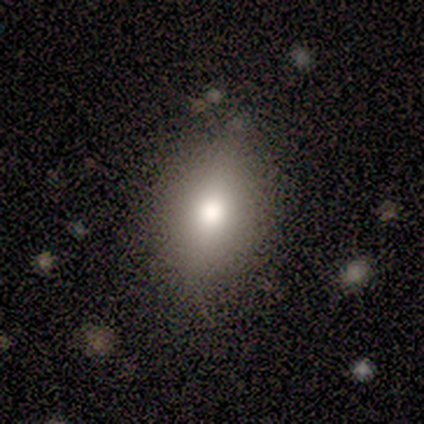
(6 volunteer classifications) Q: Smooth or featured?
A: smooth (100%)
Q: How rounded?
A: in between (100%)
Q: Merging?
A: none (100%)